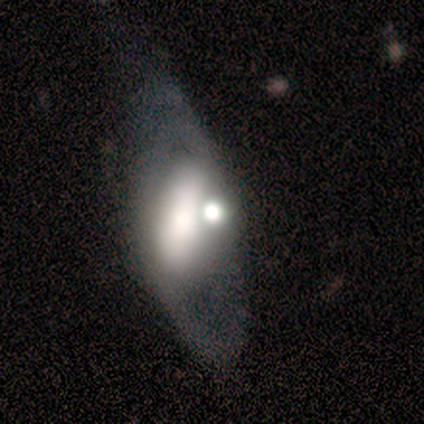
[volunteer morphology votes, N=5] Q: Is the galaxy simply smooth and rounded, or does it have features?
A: featured or disk — 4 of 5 (80%).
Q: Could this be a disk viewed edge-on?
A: yes — 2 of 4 (50%, tied with no).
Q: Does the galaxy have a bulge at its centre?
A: boxy — 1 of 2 (50%, tied with rounded).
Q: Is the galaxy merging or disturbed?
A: minor disturbance — 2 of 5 (40%, tied with major disturbance).